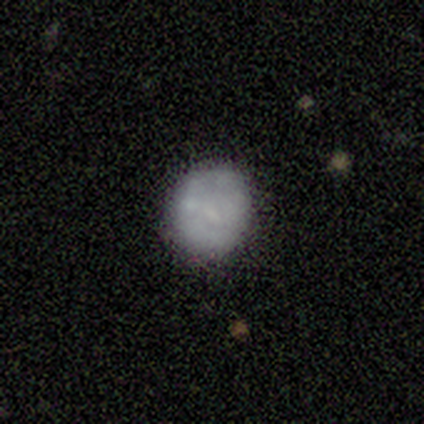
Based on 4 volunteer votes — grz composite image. It shows a featured or disk galaxy (50%) with no bar (100%), no spiral arms (100%) and a moderate central bulge (50%, tied with none). Merging: none (67%).